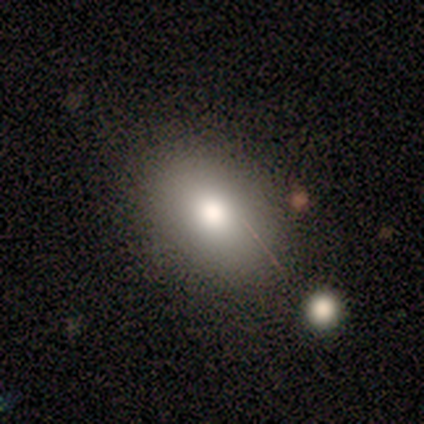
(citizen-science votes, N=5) Volunteers were most divided on "how rounded": round: 75%, in between: 25%, cigar-shaped: 0%. More confident: smooth or featured — smooth (80%); merging — none (75%).